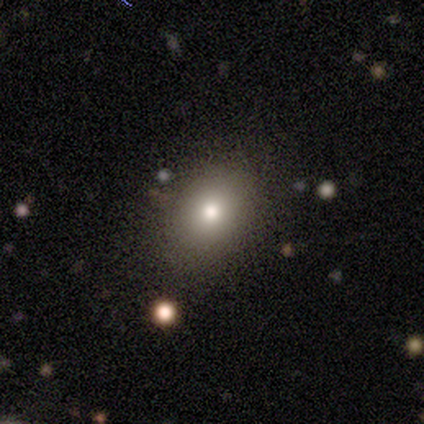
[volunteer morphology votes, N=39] Volunteers were most divided on "how rounded": in between: 56%, round: 40%, cigar-shaped: 4%. More confident: merging — none (77%); smooth or featured — smooth (64%).